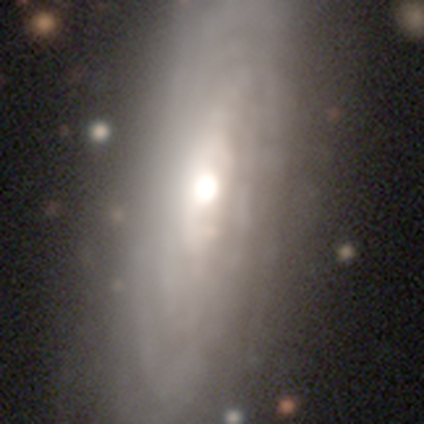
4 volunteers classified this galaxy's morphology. Q: Smooth or featured?
A: featured or disk (50%); runner-up: smooth (25%)
Q: Edge-on disk?
A: yes (50%); tied with: no (50%)
Q: Edge-on bulge?
A: rounded (100%)
Q: Merging?
A: none (100%)